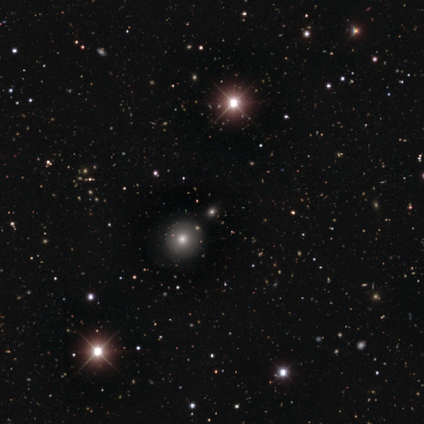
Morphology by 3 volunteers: This is likely a star or artifact rather than a galaxy (67%).